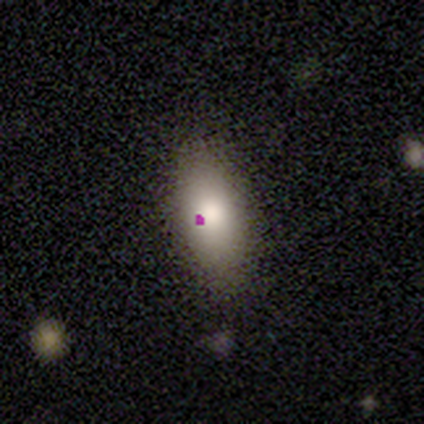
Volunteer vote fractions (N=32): A smooth galaxy with no disk features (62%) that is in between round and cigar-shaped (90%).

Vote fractions:
- Smooth or featured? smooth: 62% / featured or disk: 25% / star or artifact: 12%
- How rounded? in between: 90% / cigar-shaped: 10% / round: 0%
- Merging? none: 82% / minor disturbance: 18% / major disturbance: 0% / merger: 0%